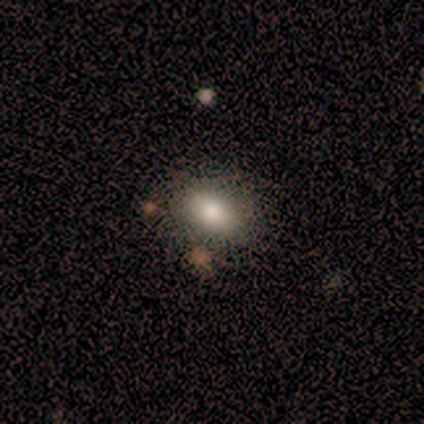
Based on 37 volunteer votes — Smooth or featured?
  - smooth: 86% *
  - featured or disk: 8%
  - star or artifact: 5%
How rounded?
  - in between: 81% *
  - round: 19%
  - cigar-shaped: 0%
Merging?
  - none: 74% *
  - minor disturbance: 20%
  - major disturbance: 3%
  - merger: 3%